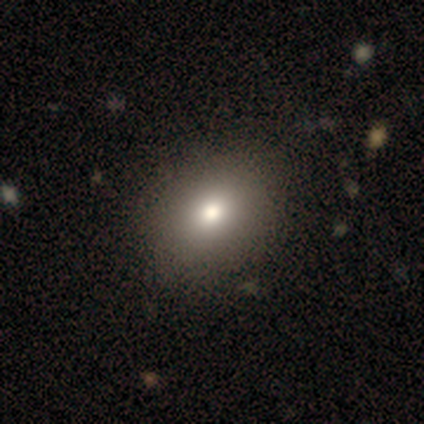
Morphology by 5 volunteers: A star or artifact, not a galaxy (60%).

Vote fractions:
- Smooth or featured? star or artifact: 60% / smooth: 20% / featured or disk: 20%